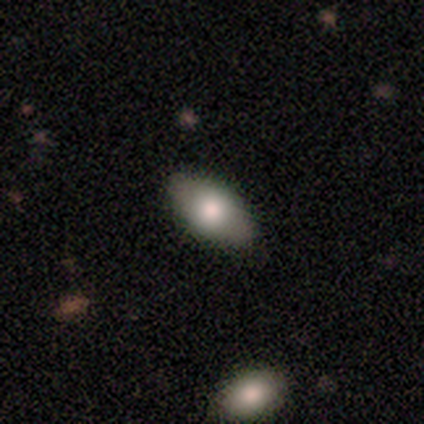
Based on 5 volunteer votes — Smooth or featured? 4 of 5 (80%) said smooth. How rounded? 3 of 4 (75%) said in between. Merging? 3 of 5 (60%) said none.